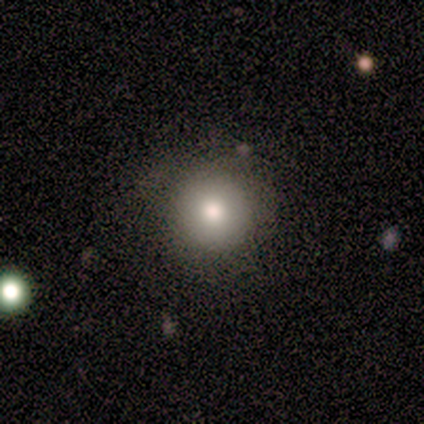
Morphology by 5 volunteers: Smooth or featured?
  - smooth: 80% *
  - featured or disk: 20%
  - star or artifact: 0%
How rounded?
  - round: 100% *
  - in between: 0%
  - cigar-shaped: 0%
Merging?
  - none: 100% *
  - minor disturbance: 0%
  - major disturbance: 0%
  - merger: 0%